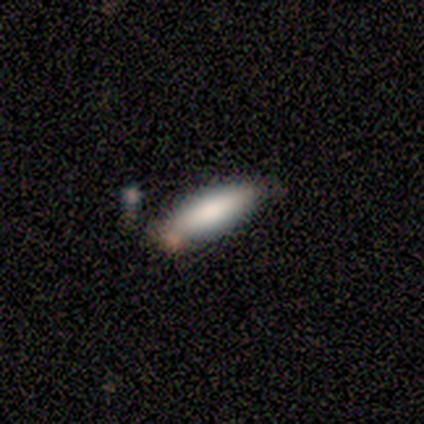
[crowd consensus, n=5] smooth_or_featured: smooth (p=1.00)
how_rounded: cigar-shaped (p=1.00)
merging: none (p=0.80) [alt: minor disturbance p=0.20]